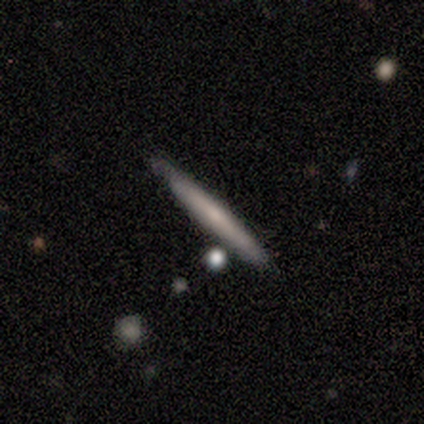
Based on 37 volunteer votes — smooth_or_featured: smooth (p=0.49) [alt: featured or disk p=0.41]
how_rounded: cigar-shaped (p=1.00)
merging: none (p=0.76) [alt: minor disturbance p=0.18]